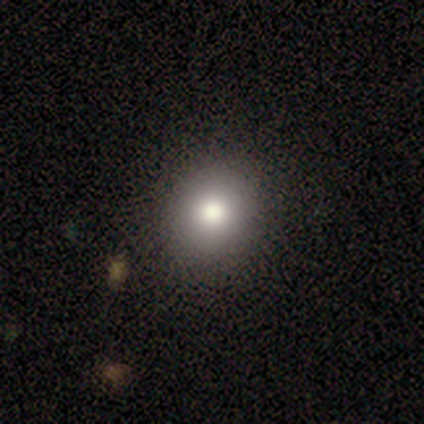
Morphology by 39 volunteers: A smooth galaxy with no disk features (72%) that is round (86%). Merging: none (91%).